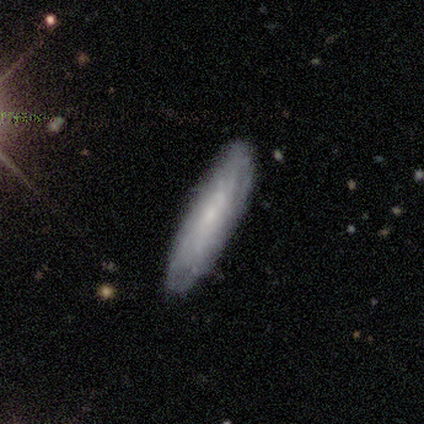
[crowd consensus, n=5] Smooth or featured? featured or disk (60%)
Edge-on disk? yes (67%)
Edge-on bulge? none (50%, tied with rounded)
Merging? none (100%)